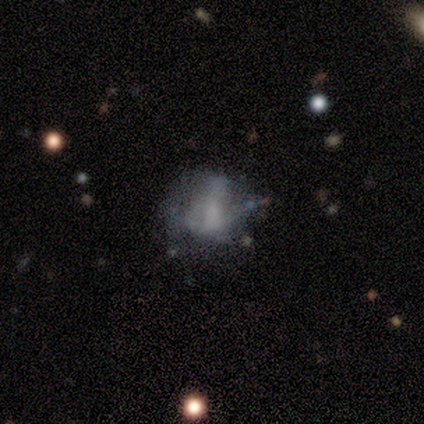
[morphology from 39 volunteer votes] type=featured or disk (74%); edge-on=no (97%); bar=no (68%); spiral arms=no (75%); bulge=none (50%); merging=none (50%).